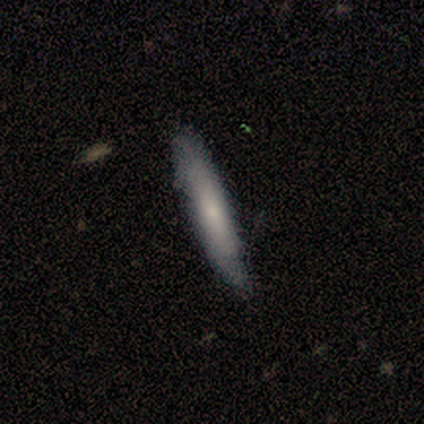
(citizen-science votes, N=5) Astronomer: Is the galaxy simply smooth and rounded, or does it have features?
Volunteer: smooth — 80%.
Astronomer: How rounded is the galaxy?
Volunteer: cigar-shaped — 100%.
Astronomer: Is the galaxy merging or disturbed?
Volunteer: none — 100%.